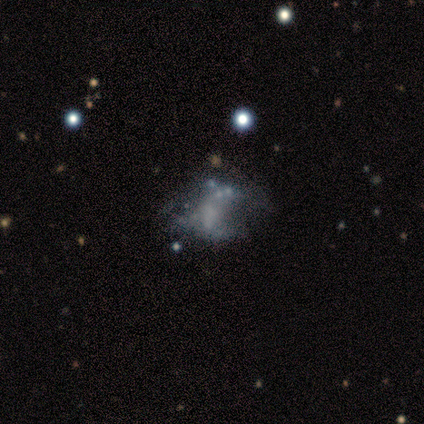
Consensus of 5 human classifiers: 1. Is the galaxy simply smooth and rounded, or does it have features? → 80% featured or disk, 20% smooth, 0% star or artifact.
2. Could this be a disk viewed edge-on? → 100% no, 0% yes.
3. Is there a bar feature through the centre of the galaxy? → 75% no, 25% strong, 0% weak.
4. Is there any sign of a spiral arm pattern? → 75% no, 25% yes.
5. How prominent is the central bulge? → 100% none, 0% dominant, 0% large, 0% moderate, 0% small.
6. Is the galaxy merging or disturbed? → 80% major disturbance, 20% none, 0% minor disturbance, 0% merger.